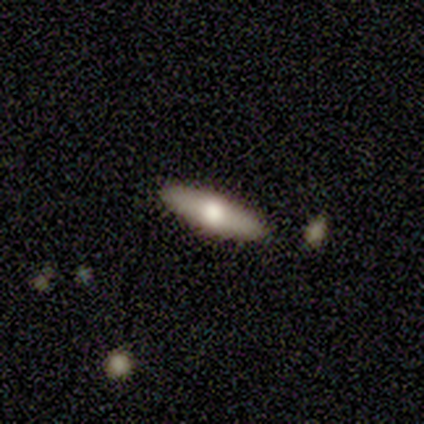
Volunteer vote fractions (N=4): Smooth or featured? featured or disk (75%)
Edge-on disk? yes (100%)
Edge-on bulge? rounded (100%)
Merging? none (100%)